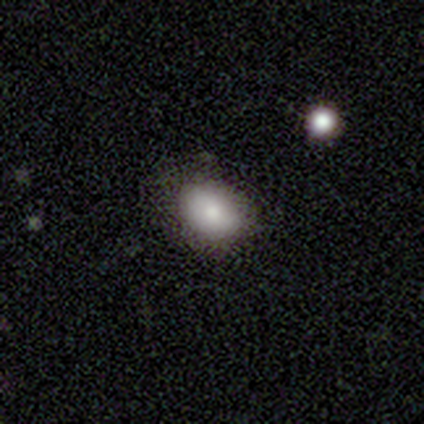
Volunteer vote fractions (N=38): Overall: smooth (87%). How rounded: in between (52%; round 48%). Merging: none (86%).